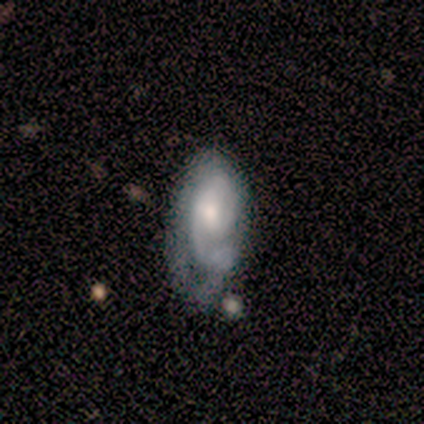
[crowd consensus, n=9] featured or disk 100%, smooth 0%, star or artifact 0%. Down the decision tree: edge-on disk — no (100%); bar — no (56%); spiral arms — yes (100%); spiral arm count — can't tell (44%); spiral winding — medium (56%); bulge size — moderate (67%); merging — none (67%).